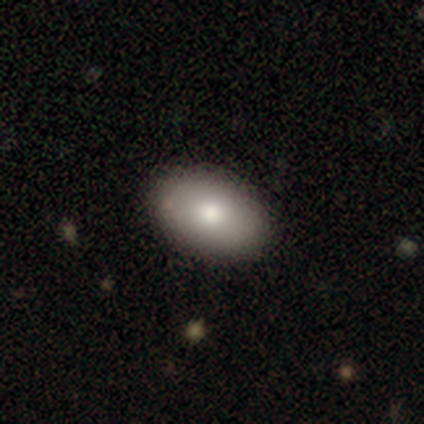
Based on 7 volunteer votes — A smooth galaxy with no disk features (100%) that is in between round and cigar-shaped (100%).

Vote fractions:
- Smooth or featured? smooth: 100% / featured or disk: 0% / star or artifact: 0%
- How rounded? in between: 100% / round: 0% / cigar-shaped: 0%
- Merging? none: 100% / minor disturbance: 0% / major disturbance: 0% / merger: 0%